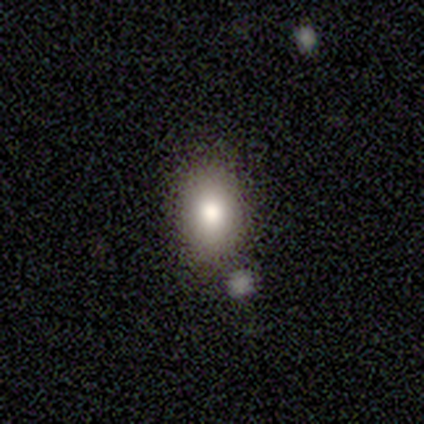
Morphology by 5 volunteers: Q: Smooth or featured?
A: smooth (100%)
Q: How rounded?
A: in between (60%); runner-up: round (40%)
Q: Merging?
A: none (100%)